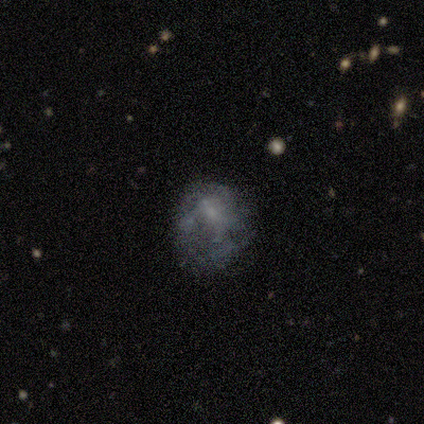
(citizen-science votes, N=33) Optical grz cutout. It shows a featured or disk galaxy (48%) with no bar (69%), no spiral arms (75%) and no central bulge (44%). Merging: none (48%).